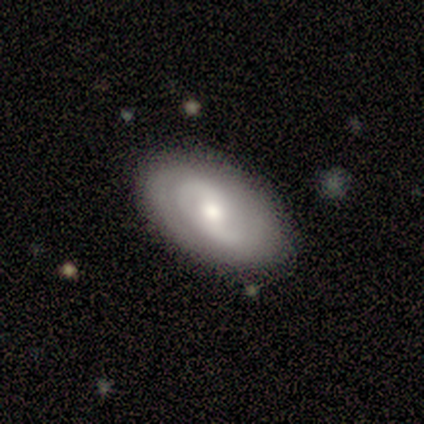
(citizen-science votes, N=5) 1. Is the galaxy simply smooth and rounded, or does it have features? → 80% featured or disk, 20% smooth, 0% star or artifact.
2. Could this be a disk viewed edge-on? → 100% no, 0% yes.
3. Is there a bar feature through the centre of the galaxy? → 75% weak, 25% no, 0% strong.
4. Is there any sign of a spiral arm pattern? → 75% yes, 25% no.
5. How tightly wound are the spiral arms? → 67% tight, 33% medium, 0% loose.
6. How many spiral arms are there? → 67% 2, 33% can't tell, 0% 1, 0% 3, 0% 4, 0% more than 4.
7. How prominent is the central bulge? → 50% moderate (tied), 50% small (tied), 0% dominant, 0% large, 0% none.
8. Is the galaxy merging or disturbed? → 100% none, 0% minor disturbance, 0% major disturbance, 0% merger.